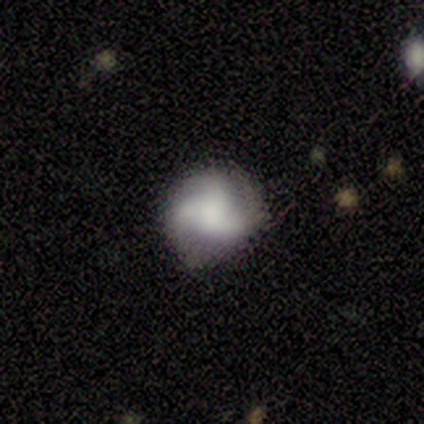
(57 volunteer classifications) Q: Smooth or featured?
A: featured or disk (63%); runner-up: smooth (33%)
Q: Edge-on disk?
A: no (94%); runner-up: yes (6%)
Q: Bar?
A: no (74%); runner-up: weak (26%)
Q: Spiral arms?
A: yes (94%); runner-up: no (6%)
Q: Spiral winding?
A: medium (62%); runner-up: loose (28%)
Q: Spiral arm count?
A: 3 (84%); runner-up: 2 (12%)
Q: Bulge size?
A: none (35%); runner-up: large (26%)
Q: Merging?
A: none (84%); runner-up: minor disturbance (13%)